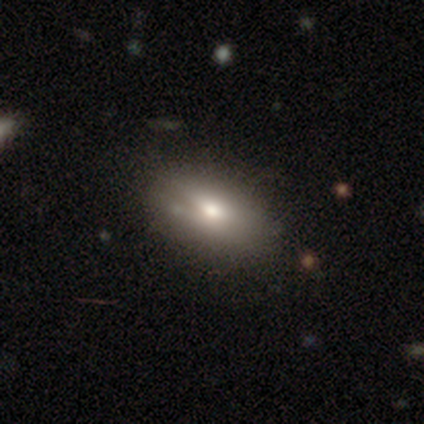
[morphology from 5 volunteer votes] Smooth or featured?
  - smooth: 80% *
  - featured or disk: 20%
  - star or artifact: 0%
How rounded?
  - in between: 100% *
  - round: 0%
  - cigar-shaped: 0%
Merging?
  - none: 60% *
  - minor disturbance: 20%
  - major disturbance: 20%
  - merger: 0%